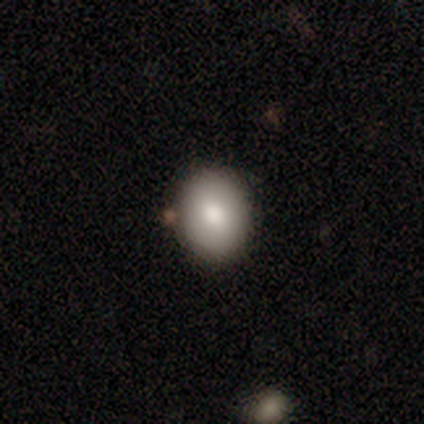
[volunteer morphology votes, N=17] Smooth or featured? 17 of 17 (100%) said smooth. How rounded? 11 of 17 (65%) said round. Merging? 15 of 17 (88%) said none.